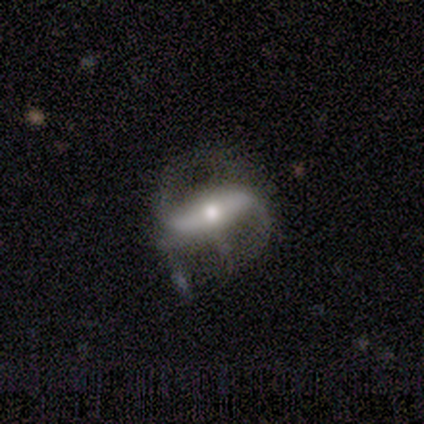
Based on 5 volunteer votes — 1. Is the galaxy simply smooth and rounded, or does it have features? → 60% smooth, 40% featured or disk, 0% star or artifact.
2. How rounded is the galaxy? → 67% cigar-shaped, 33% in between, 0% round.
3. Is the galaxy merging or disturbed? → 80% none, 20% major disturbance, 0% minor disturbance, 0% merger.